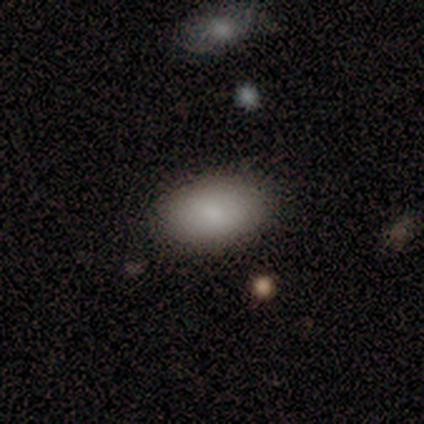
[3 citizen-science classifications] smooth_or_featured: smooth (p=0.67) [alt: featured or disk p=0.33]
how_rounded: in between (p=1.00)
merging: none (p=1.00)